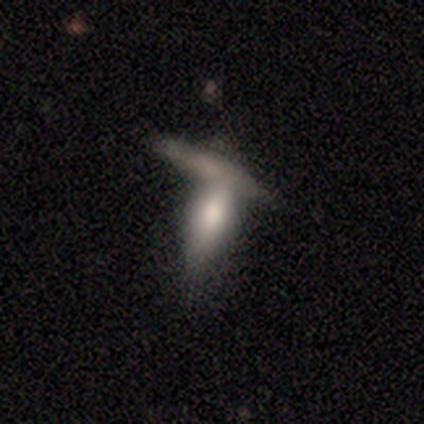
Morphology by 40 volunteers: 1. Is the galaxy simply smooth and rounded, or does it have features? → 52% smooth, 40% featured or disk, 8% star or artifact.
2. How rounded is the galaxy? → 52% in between, 48% cigar-shaped, 0% round.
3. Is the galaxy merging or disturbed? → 54% merger, 30% none, 11% minor disturbance, 5% major disturbance.